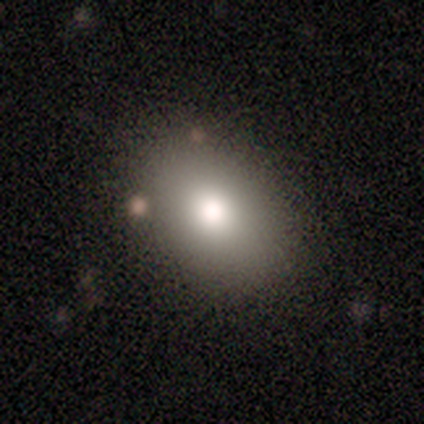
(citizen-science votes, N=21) This appears to be a smooth galaxy with no disk features (90%) that is in between round and cigar-shaped (63%). Merging: none (85%).